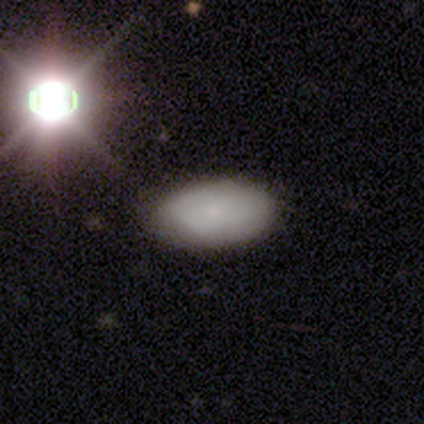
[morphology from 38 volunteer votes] type=smooth (68%); roundness=in between (96%); merging=none (78%).